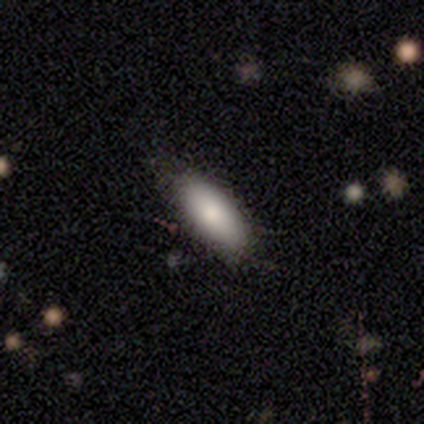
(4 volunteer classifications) Morphology: type=smooth (100%); roundness=in between (50%, tied with cigar-shaped); merging=none (75%).